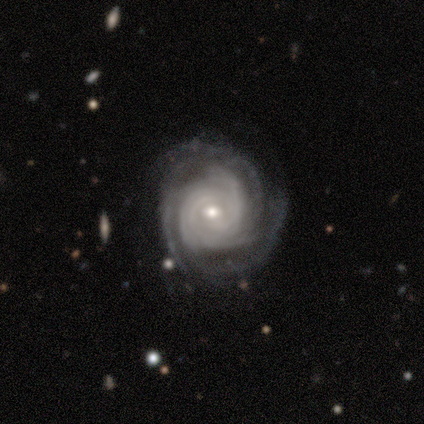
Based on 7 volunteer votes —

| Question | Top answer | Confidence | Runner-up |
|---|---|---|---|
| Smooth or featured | featured or disk | 100% | — |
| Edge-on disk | no | 100% | — |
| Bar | no | 71% | weak (29%) |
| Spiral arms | yes | 100% | — |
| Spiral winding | tight | 57% | medium (29%) |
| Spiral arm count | more than 4 | 43% | 3 (29%) |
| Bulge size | moderate | 71% | dominant (14%) |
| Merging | none | 57% | minor disturbance (14%) |